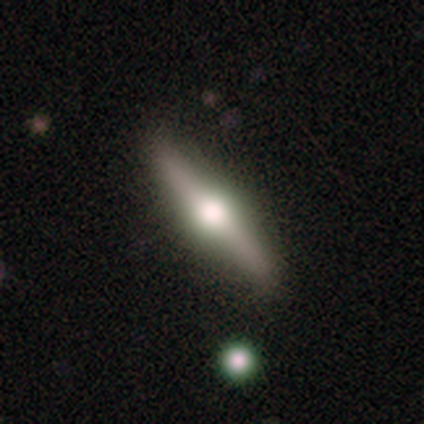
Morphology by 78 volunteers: smooth-or-featured: featured or disk: 79% | smooth: 19% | star or artifact: 1%
  disk-edge-on: yes: 100% | no: 0%
    edge-on-bulge: rounded: 97% | boxy: 3% | none: 0%
  merging: none: 43% | minor disturbance: 5% | merger: 4% | major disturbance: 1%